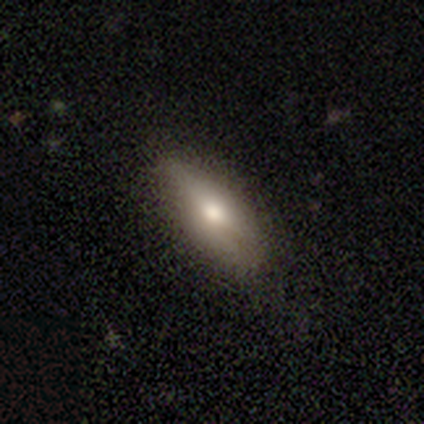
Q: Smooth or featured?
A: smooth (75%); runner-up: featured or disk (25%)
Q: How rounded?
A: in between (100%)
Q: Merging?
A: none (75%); runner-up: minor disturbance (25%)